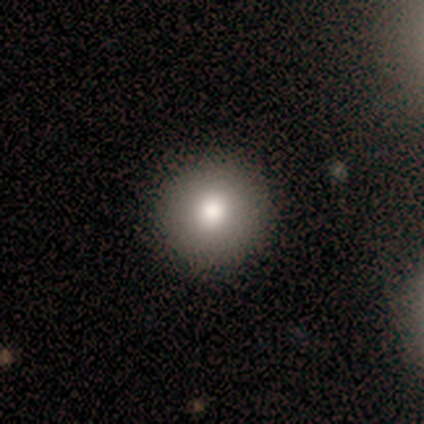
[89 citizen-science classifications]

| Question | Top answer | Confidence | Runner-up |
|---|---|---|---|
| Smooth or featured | smooth | 82% | featured or disk (11%) |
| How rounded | round | 95% | in between (5%) |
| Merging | none | 88% | major disturbance (6%) |